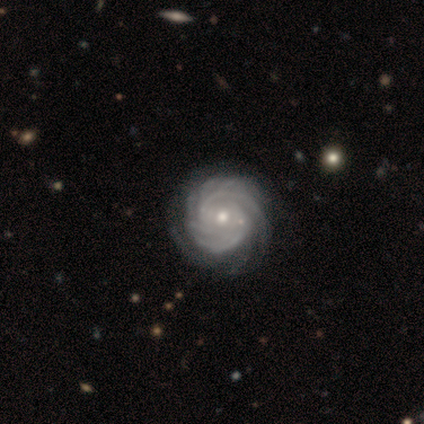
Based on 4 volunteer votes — featured or disk 100%, smooth 0%, star or artifact 0%. Down the decision tree: edge-on disk — no (100%); bar — no (50%); spiral arms — yes (100%); spiral arm count — 4 (75%); spiral winding — tight (75%); bulge size — moderate (50%, tied with small); merging — none (75%).